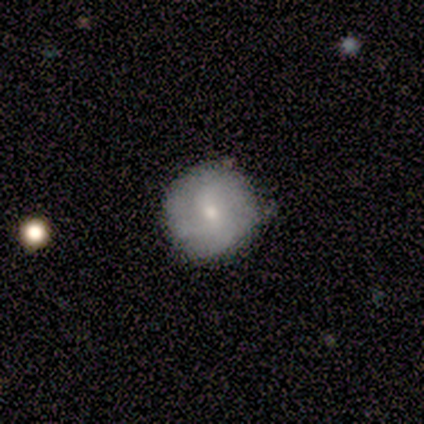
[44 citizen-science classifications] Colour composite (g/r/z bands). It shows a featured or disk galaxy (50%) with no bar (57%), medium (42%) spiral arms (57%) and a small central bulge (62%). Merging: none (75%).